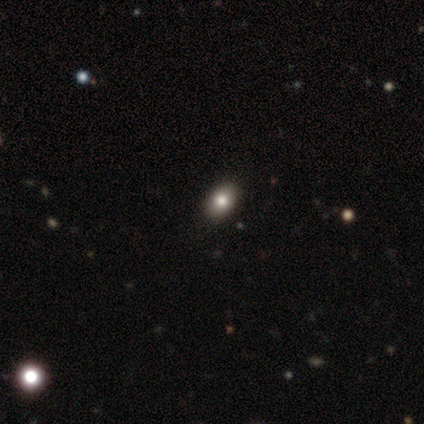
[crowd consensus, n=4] A smooth galaxy with no disk features (100%) that is in between round and cigar-shaped (100%). Merging: none (100%).